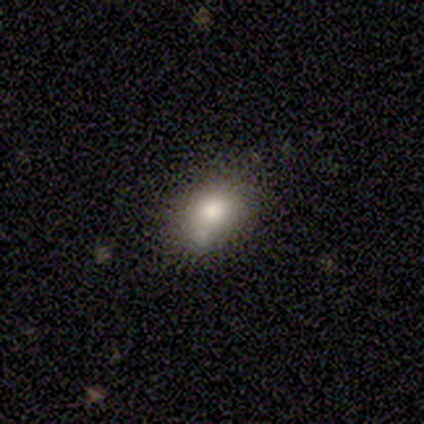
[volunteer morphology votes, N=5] This appears to be a smooth galaxy with no disk features (80%) that is in between round and cigar-shaped (100%). Merging: none (80%).